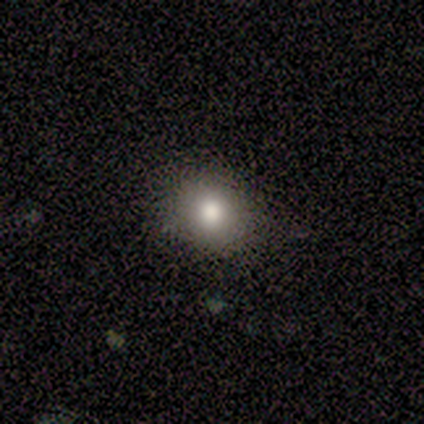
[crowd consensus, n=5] A smooth galaxy with no disk features (80%) that is in between round and cigar-shaped (75%). Merging: none (80%).